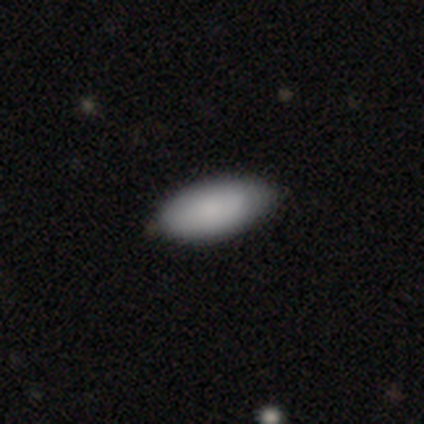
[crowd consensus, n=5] Smooth or featured? smooth (100%)
How rounded? in between (80%)
Merging? none (60%)